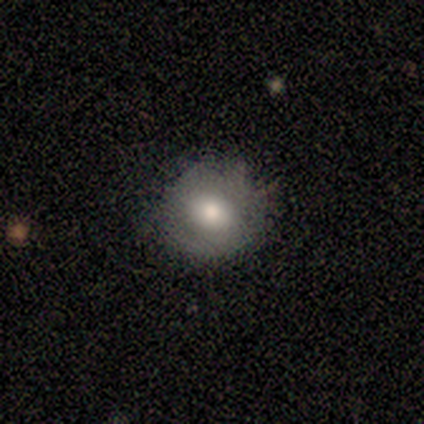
Smooth or featured: smooth — 80% (featured or disk — 20%)
How rounded: round — 75% (in between — 25%)
Merging: none — 80% (minor disturbance — 20%)